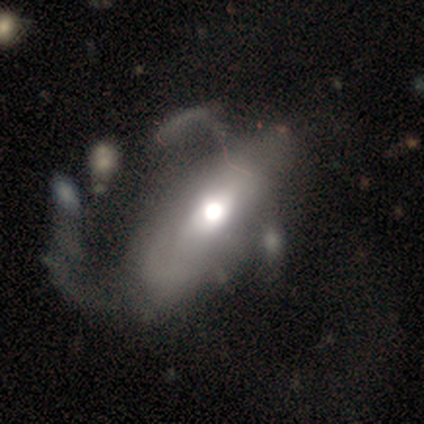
smooth 40% (tied), featured or disk 40% (tied), star or artifact 20%. Down the decision tree: how rounded — in between (50%, tied with cigar-shaped); merging — merger (50%).